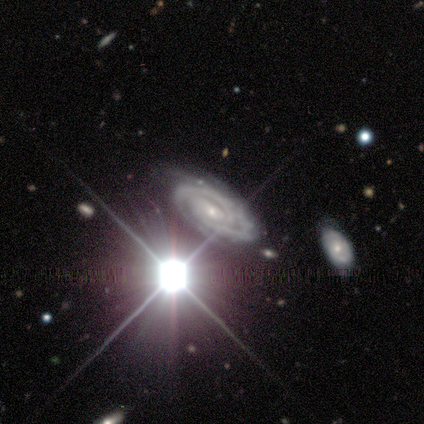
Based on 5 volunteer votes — A featured or disk galaxy (60%) with no bar (100%), 2 (67%) tight (100%) spiral arms (100%) and a small central bulge (67%). Merging: none (100%).